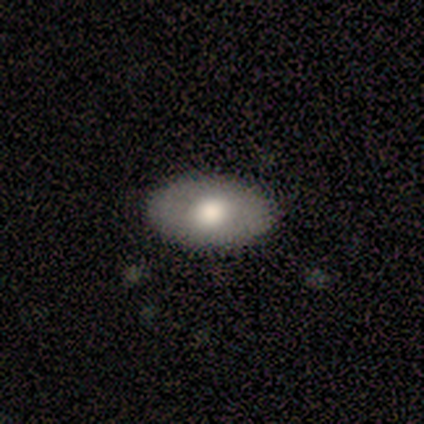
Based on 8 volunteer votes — A smooth galaxy with no disk features (62%) that is in between round and cigar-shaped (100%). Merging: none (100%).